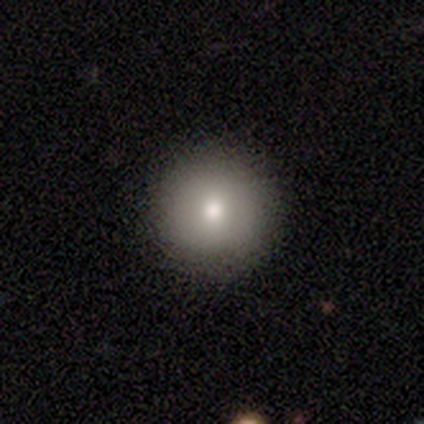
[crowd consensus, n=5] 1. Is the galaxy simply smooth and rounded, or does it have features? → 80% smooth, 20% featured or disk, 0% star or artifact.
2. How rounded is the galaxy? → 100% round, 0% in between, 0% cigar-shaped.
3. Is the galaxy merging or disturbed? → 100% none, 0% minor disturbance, 0% major disturbance, 0% merger.